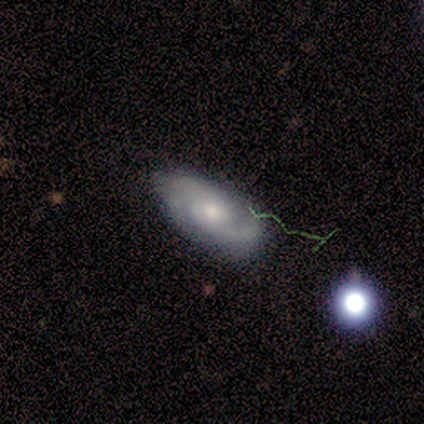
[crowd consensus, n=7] A featured or disk galaxy (57%) with no bar (75%), 2 (75%) tight (50%) spiral arms (100%) and a moderate central bulge (75%). Merging: none (67%).